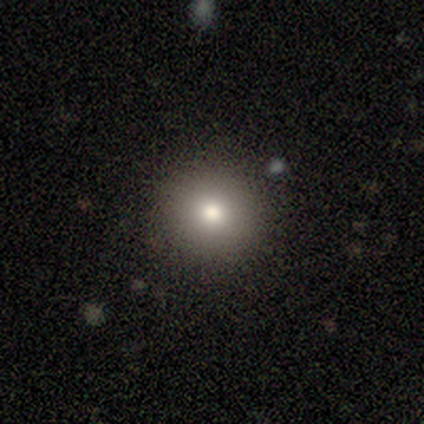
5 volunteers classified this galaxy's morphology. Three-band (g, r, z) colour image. It shows a smooth galaxy with no disk features (100%) that is round (100%). Merging: none (100%).